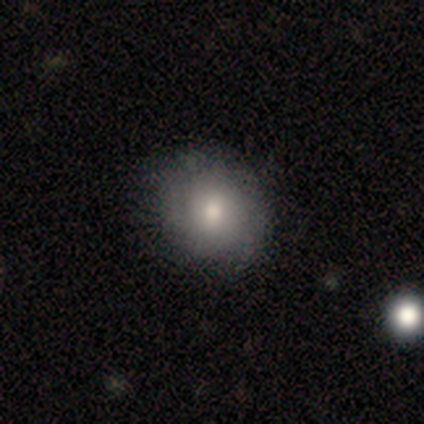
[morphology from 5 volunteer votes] This is clearly a smooth galaxy (100%). How rounded: clearly round (100%). Merging: clearly none (80%).